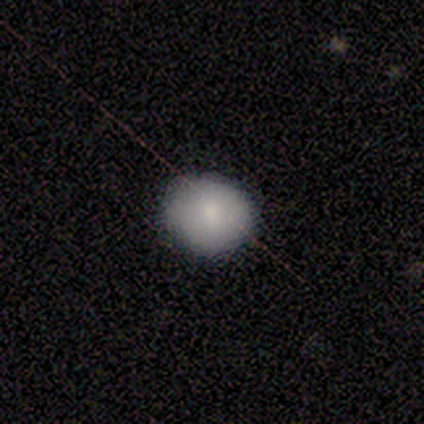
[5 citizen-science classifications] This appears to be a smooth galaxy with no disk features (60%) that is round (67%). Merging: none (80%).